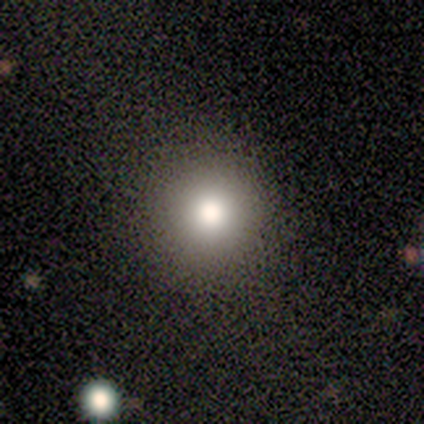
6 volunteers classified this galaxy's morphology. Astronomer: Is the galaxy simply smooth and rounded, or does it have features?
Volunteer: smooth — 50%, tied with star or artifact at 50%.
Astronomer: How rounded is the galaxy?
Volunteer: round — 100%.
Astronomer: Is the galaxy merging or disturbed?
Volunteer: none — 100%.